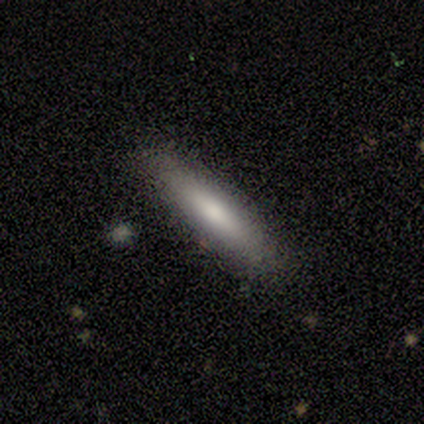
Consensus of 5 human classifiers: Smooth or featured: smooth — 80% (featured or disk — 20%)
How rounded: cigar-shaped — 100%
Merging: none — 100%